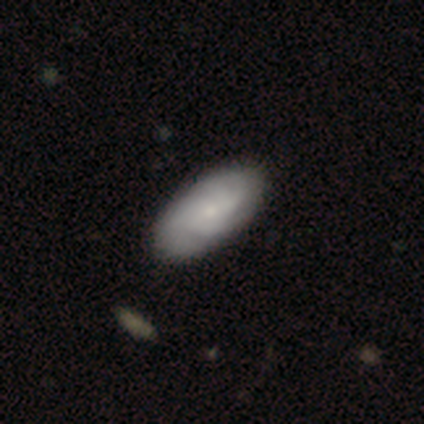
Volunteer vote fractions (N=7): This appears to be a smooth galaxy with no disk features (71%) that is in between round and cigar-shaped (100%). Merging: none (86%).